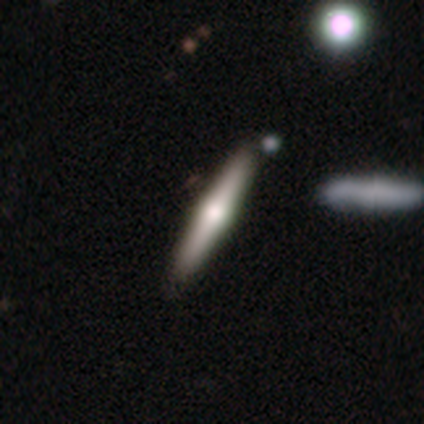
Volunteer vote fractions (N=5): Overall: featured or disk (80%). Edge-on disk: yes (100%). Edge-on bulge: rounded (100%). Merging: none (100%).